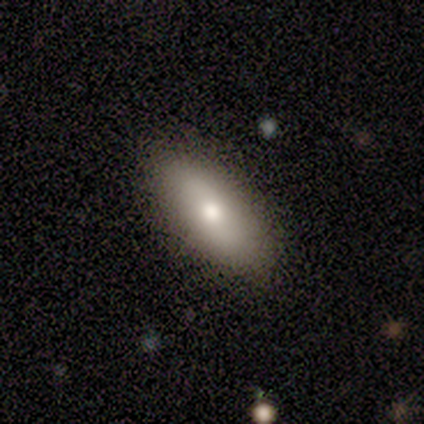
Morphology: type=smooth (100%); roundness=in between (100%); merging=none (100%).